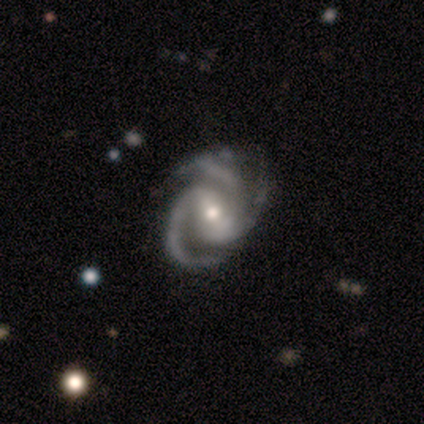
Q: Smooth or featured?
A: featured or disk (100%)
Q: Edge-on disk?
A: no (100%)
Q: Bar?
A: no (50%); runner-up: weak (33%)
Q: Spiral arms?
A: yes (100%)
Q: Spiral winding?
A: tight (50%); tied with: medium (50%)
Q: Spiral arm count?
A: 3 (100%)
Q: Bulge size?
A: moderate (67%); runner-up: small (33%)
Q: Merging?
A: none (67%); runner-up: minor disturbance (33%)